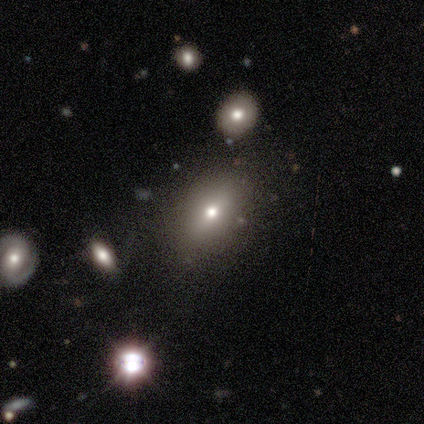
Morphology: type=smooth (75%); roundness=in between (100%); merging=none (100%).